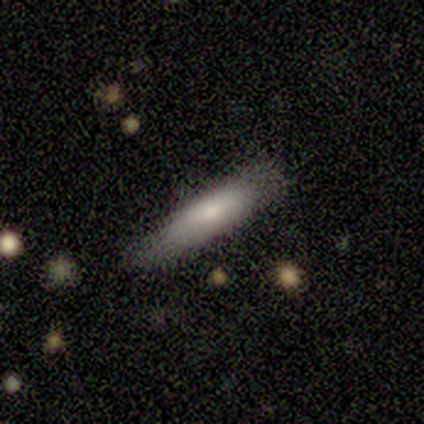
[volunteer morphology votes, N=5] Overall: smooth (80%). How rounded: cigar-shaped (75%). Merging: none (60%; minor disturbance 40%).